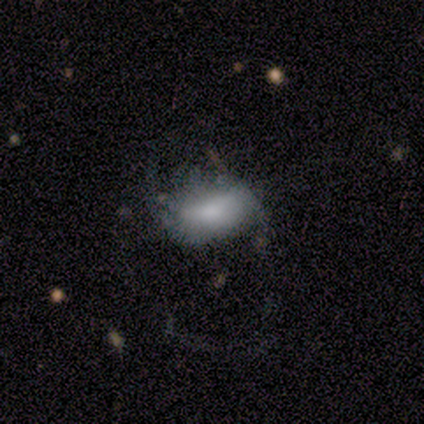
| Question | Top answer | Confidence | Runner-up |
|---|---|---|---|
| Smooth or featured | smooth | 100% | — |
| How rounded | in between | 100% | — |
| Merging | major disturbance | 60% | none (40%) |